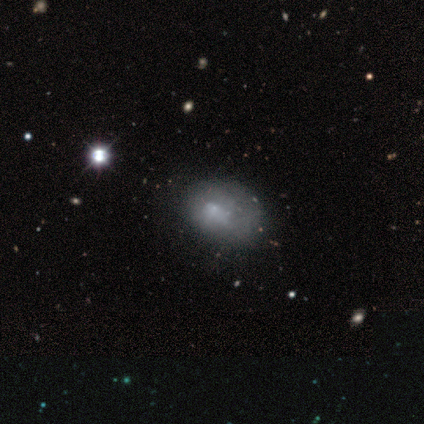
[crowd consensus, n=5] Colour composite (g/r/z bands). It shows a smooth galaxy with no disk features (40%, tied with featured or disk) that is in between round and cigar-shaped (100%). Merging: major disturbance (50%).